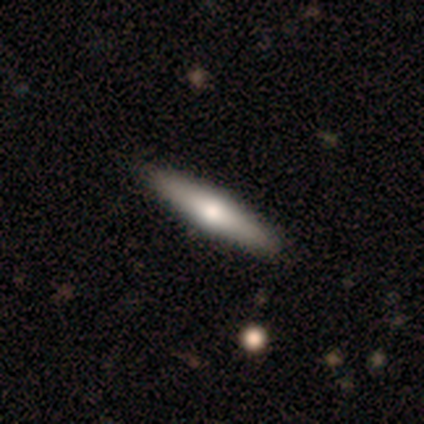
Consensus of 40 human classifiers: Smooth or featured? 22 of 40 (55%) said featured or disk. Edge-on disk? 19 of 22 (86%) said yes. Edge-on bulge? 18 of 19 (95%) said rounded. Merging? 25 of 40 (62%) said none.